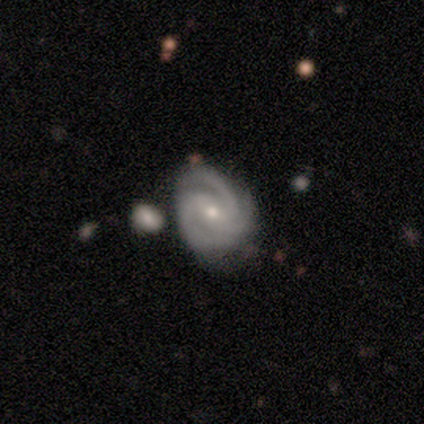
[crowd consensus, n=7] A featured or disk galaxy (100%) with a weak bar (83%), 3 (83%) tight (50%) spiral arms (100%) and a small central bulge (100%). Merging: minor disturbance (43%).